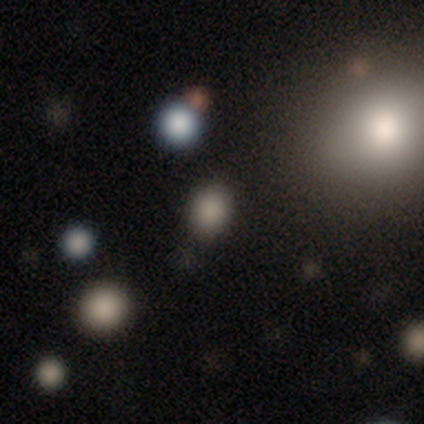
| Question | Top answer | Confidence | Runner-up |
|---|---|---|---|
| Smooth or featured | smooth | 100% | — |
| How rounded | round | 50% | tied: in between (50%) |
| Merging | none | 100% | — |